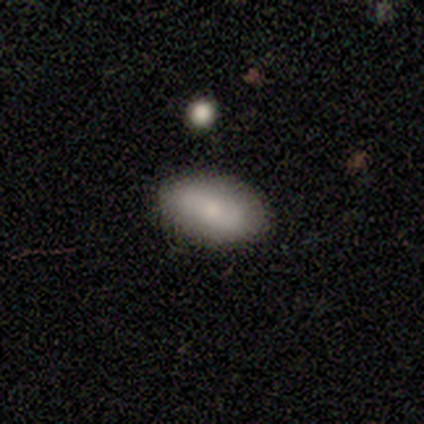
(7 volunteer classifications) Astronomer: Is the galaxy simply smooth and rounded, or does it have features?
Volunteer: smooth — 71%.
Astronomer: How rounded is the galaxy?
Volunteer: in between — 100%.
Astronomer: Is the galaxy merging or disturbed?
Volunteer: none — 57% (runner-up: minor disturbance, 43%).